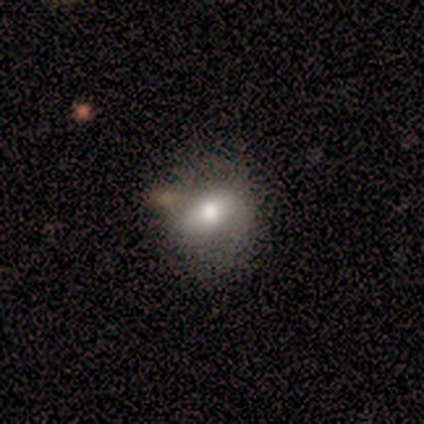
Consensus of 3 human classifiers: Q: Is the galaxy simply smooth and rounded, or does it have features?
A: smooth — 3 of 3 (100%).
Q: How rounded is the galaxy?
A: in between — 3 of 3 (100%).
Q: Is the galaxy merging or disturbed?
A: none — 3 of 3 (100%).